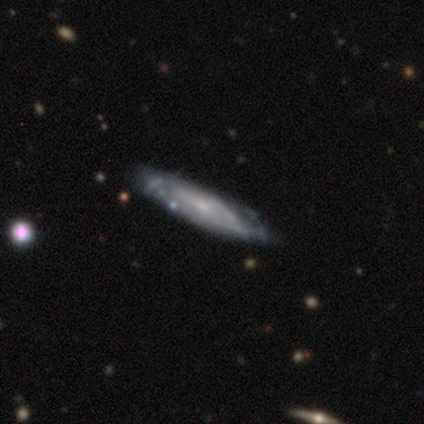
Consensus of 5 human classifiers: Q: Smooth or featured?
A: smooth (60%); runner-up: featured or disk (40%)
Q: How rounded?
A: cigar-shaped (67%); runner-up: in between (33%)
Q: Merging?
A: none (100%)